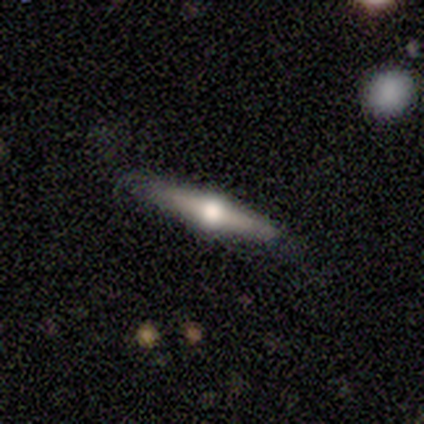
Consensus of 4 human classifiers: Smooth or featured?
  - featured or disk: 100% *
  - smooth: 0%
  - star or artifact: 0%
Edge-on disk?
  - yes: 100% *
  - no: 0%
Edge-on bulge?
  - rounded: 100% *
  - boxy: 0%
  - none: 0%
Merging?
  - none: 75% *
  - minor disturbance: 25%
  - major disturbance: 0%
  - merger: 0%